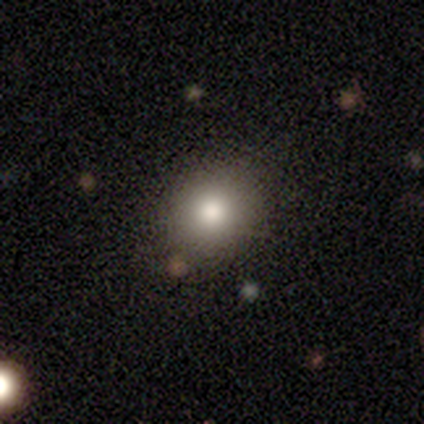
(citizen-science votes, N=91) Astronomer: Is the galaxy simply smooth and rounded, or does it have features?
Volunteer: smooth — 86%.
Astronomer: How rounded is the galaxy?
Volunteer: round — 77%.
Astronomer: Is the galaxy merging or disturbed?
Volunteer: none — 79%.